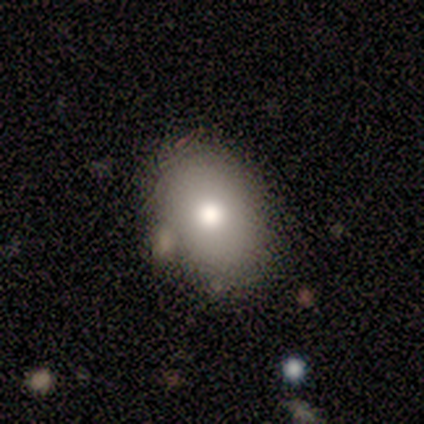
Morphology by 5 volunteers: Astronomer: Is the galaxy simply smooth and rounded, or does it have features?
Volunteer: smooth — 80%.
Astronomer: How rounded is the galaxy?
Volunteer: in between — 100%.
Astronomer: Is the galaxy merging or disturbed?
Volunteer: none — 75%.